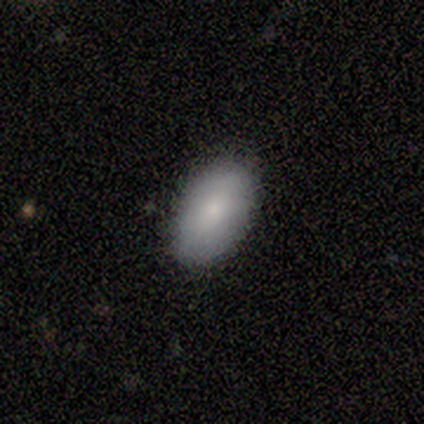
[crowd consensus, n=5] Overall: smooth (100%). How rounded: in between (100%). Merging: none (100%).